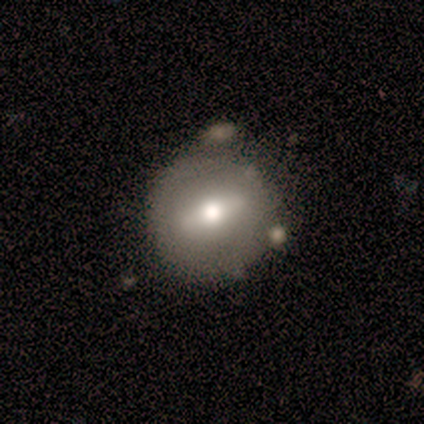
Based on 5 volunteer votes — A smooth galaxy with no disk features (60%) that is round (100%).

Vote fractions:
- Smooth or featured? smooth: 60% / featured or disk: 40% / star or artifact: 0%
- How rounded? round: 100% / in between: 0% / cigar-shaped: 0%
- Merging? none: 60% / minor disturbance: 20% / merger: 20% / major disturbance: 0%